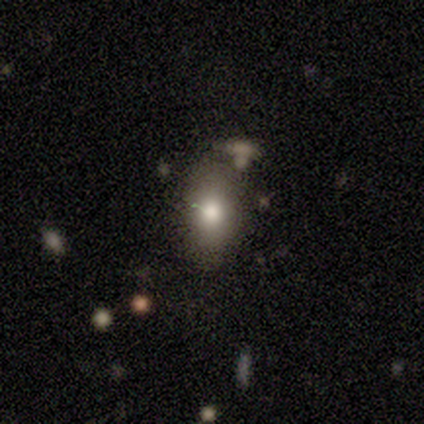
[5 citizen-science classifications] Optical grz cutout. It shows a smooth galaxy with no disk features (60%) that is in between round and cigar-shaped (100%). Merging: none (50%, tied with minor disturbance).